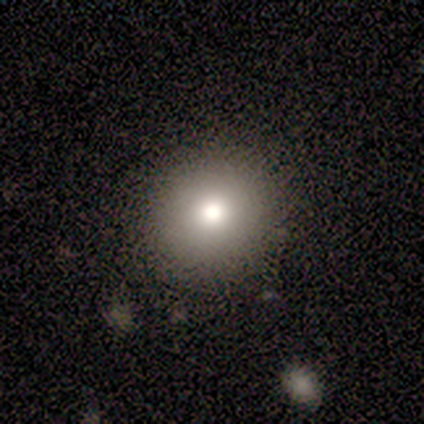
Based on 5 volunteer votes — Q: Smooth or featured?
A: smooth (80%); runner-up: featured or disk (20%)
Q: How rounded?
A: round (100%)
Q: Merging?
A: none (80%); runner-up: minor disturbance (20%)